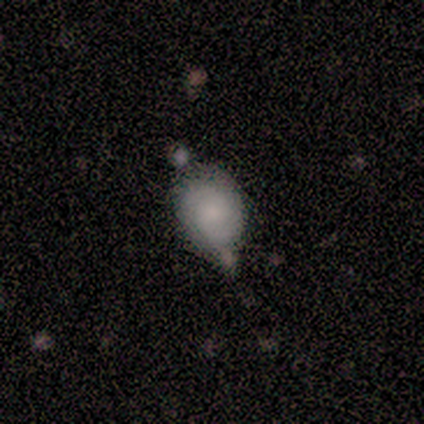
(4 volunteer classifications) Smooth or featured: smooth — 75% (star or artifact — 25%)
How rounded: in between — 67% (round — 33%)
Merging: none — 67% (minor disturbance — 33%)